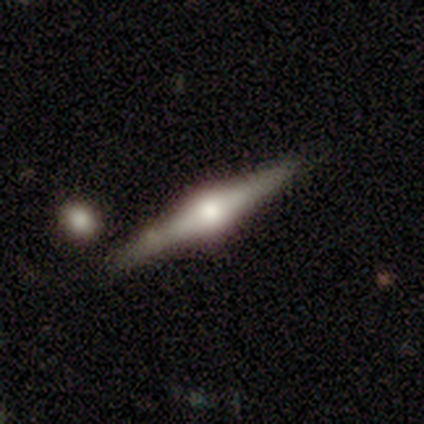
Volunteers were most divided on "merging": none: 50%, minor disturbance: 25%, merger: 25%, major disturbance: 0%. More confident: edge-on disk — yes (100%); edge-on bulge — rounded (100%); smooth or featured — featured or disk (75%).